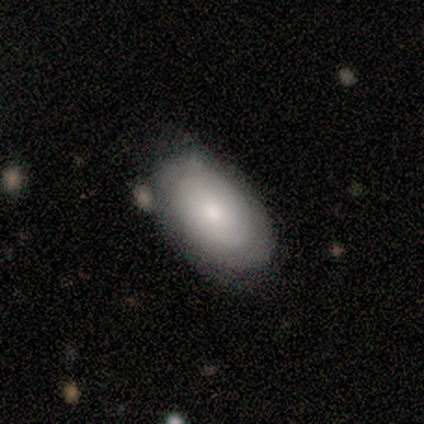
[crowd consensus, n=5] Smooth or featured: smooth — 40% (tied with featured or disk — 40%)
How rounded: in between — 100%
Merging: none — 100%